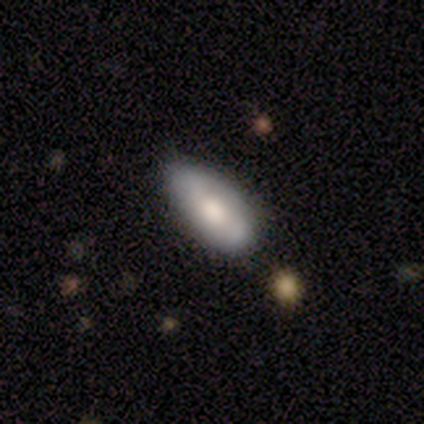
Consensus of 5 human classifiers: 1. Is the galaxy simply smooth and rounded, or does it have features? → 60% smooth, 40% featured or disk, 0% star or artifact.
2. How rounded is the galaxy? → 100% in between, 0% round, 0% cigar-shaped.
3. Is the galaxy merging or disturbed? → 60% none, 40% minor disturbance, 0% major disturbance, 0% merger.